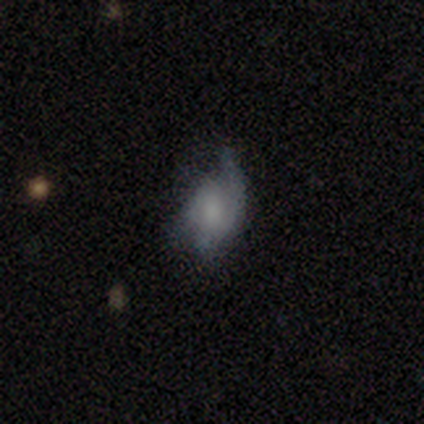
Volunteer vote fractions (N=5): Smooth or featured?
  - featured or disk: 100% *
  - smooth: 0%
  - star or artifact: 0%
Edge-on disk?
  - no: 100% *
  - yes: 0%
Bar?
  - no: 60% *
  - weak: 40%
  - strong: 0%
Spiral arms?
  - yes: 60% *
  - no: 40%
Spiral winding?
  - loose: 100% *
  - tight: 0%
  - medium: 0%
Spiral arm count?
  - 1: 33% * (tied)
  - 2: 33% * (tied)
  - 3: 33% * (tied)
  - 4: 0%
  - more than 4: 0%
  - can't tell: 0%
Bulge size?
  - small: 60% *
  - moderate: 20%
  - none: 20%
  - dominant: 0%
  - large: 0%
Merging?
  - minor disturbance: 60% *
  - major disturbance: 40%
  - none: 0%
  - merger: 0%